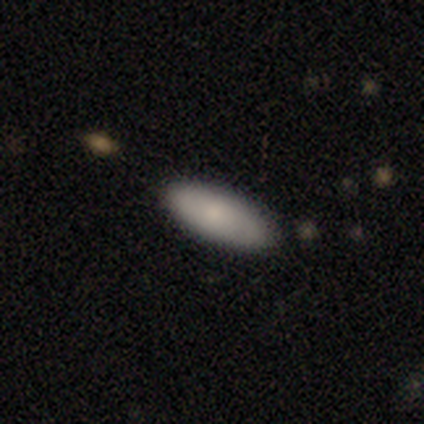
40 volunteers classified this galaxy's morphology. smooth_or_featured: smooth (p=0.82) [alt: featured or disk p=0.15]
how_rounded: in between (p=0.79) [alt: cigar-shaped p=0.21]
merging: none (p=0.79) [alt: minor disturbance p=0.18]